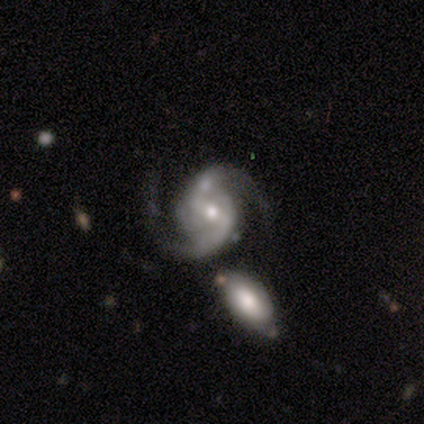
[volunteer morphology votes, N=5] This appears to be a featured or disk galaxy (80%) with no bar (50%), 2 (100%) medium (75%) spiral arms (100%) and a small central bulge (75%). Merging: none (40%, tied with minor disturbance).